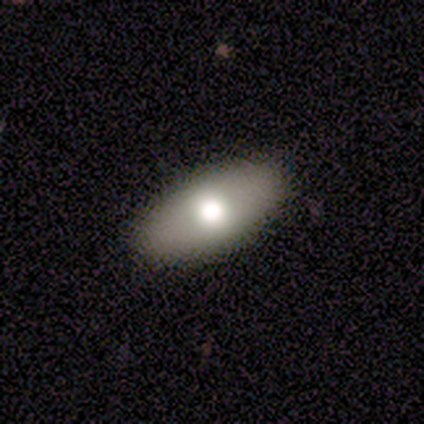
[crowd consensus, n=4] This is clearly a smooth galaxy (100%). How rounded: clearly in between (100%). Merging: likely none (75%).